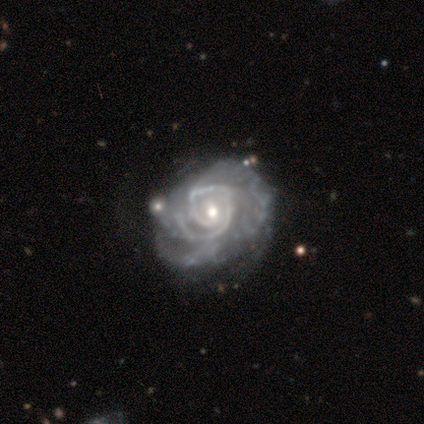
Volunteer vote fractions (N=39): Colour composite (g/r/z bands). It shows a featured or disk galaxy (90%) with no bar (77%), 1 (34%) tight (74%) spiral arms (100%) and a moderate central bulge (49%). Merging: none (31%).